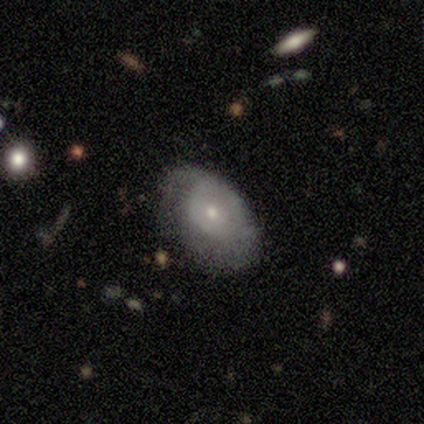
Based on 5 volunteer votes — Q: Smooth or featured?
A: smooth (60%); runner-up: featured or disk (40%)
Q: How rounded?
A: in between (67%); runner-up: round (33%)
Q: Merging?
A: none (60%); runner-up: minor disturbance (20%)